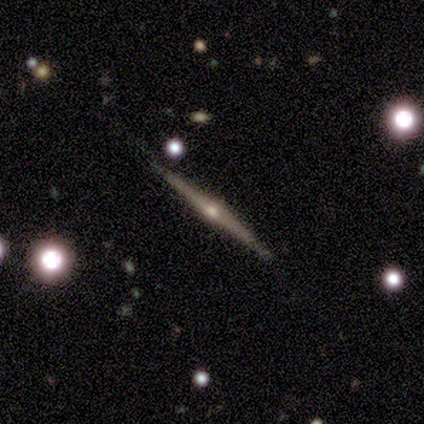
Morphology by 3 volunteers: This appears to be a featured or disk galaxy (100%) viewed edge-on (100%) with a rounded central bulge (100%). Merging: none (100%).